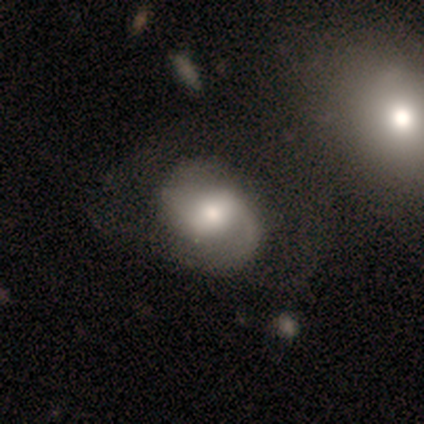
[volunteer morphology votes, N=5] Smooth or featured? 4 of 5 (80%) said featured or disk. Edge-on disk? 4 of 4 (100%) said no. Bar? 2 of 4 (50%, tied with no) said weak. Spiral arms? 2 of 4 (50%, tied with no) said yes. Spiral winding? 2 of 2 (100%) said medium. Spiral arm count? 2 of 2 (100%) said 2. Bulge size? 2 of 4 (50%) said small. Merging? 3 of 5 (60%) said merger.